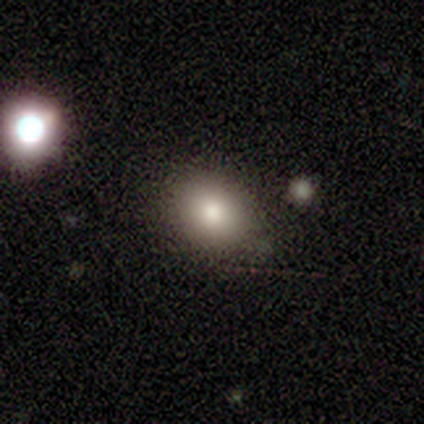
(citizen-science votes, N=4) Smooth or featured? 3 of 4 (75%) said smooth. How rounded? 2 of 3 (67%) said in between. Merging? 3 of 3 (100%) said none.